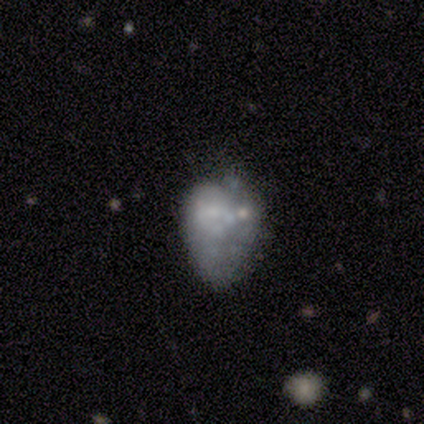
Q: Smooth or featured?
A: featured or disk (60%); runner-up: smooth (40%)
Q: Edge-on disk?
A: no (100%)
Q: Bar?
A: no (100%)
Q: Spiral arms?
A: no (100%)
Q: Bulge size?
A: large (33%); tied with: small (33%); none (33%)
Q: Merging?
A: minor disturbance (80%); runner-up: none (20%)